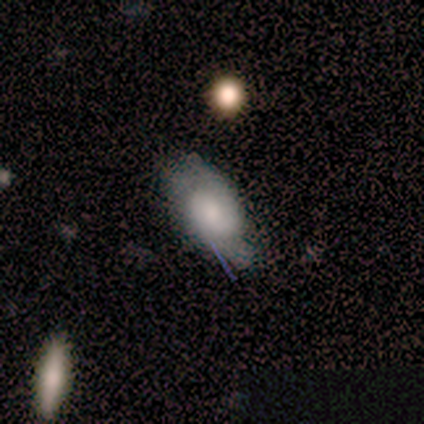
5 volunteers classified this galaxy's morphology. type=smooth (60%); roundness=in between (100%); merging=major disturbance (75%).